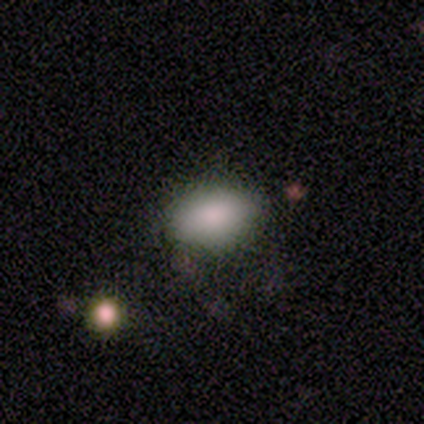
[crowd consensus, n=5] smooth 100%, featured or disk 0%, star or artifact 0%. Down the decision tree: how rounded — in between (80%); merging — none (80%).